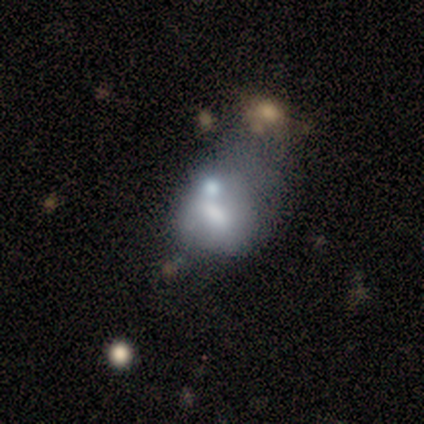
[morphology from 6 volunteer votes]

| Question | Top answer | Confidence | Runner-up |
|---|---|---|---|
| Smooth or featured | featured or disk | 50% | smooth (33%) |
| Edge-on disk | no | 100% | — |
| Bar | strong | 33% | tied: weak (33%), no (33%) |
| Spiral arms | no | 100% | — |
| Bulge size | moderate | 67% | small (33%) |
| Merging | merger | 60% | major disturbance (40%) |